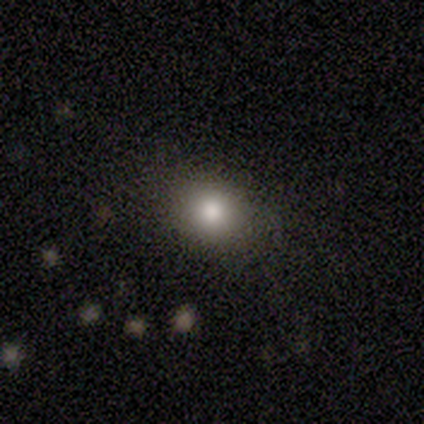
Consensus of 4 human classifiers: Smooth or featured? 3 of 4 (75%) said smooth. How rounded? 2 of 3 (67%) said round. Merging? 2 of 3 (67%) said minor disturbance.